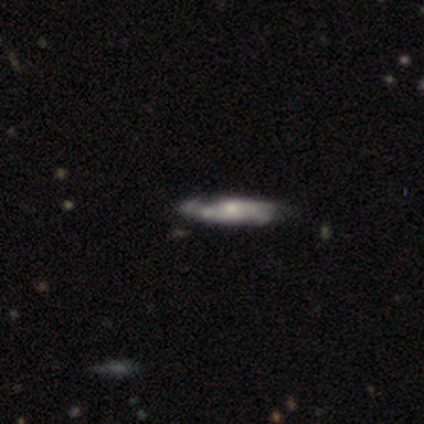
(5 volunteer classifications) This is clearly a featured or disk galaxy (100%). It is clearly not viewed edge-on (80%). Bar: possibly weak (50%, tied with no). Spiral arm pattern: likely no (75%). Central bulge: marginally large (25%, tied with moderate, small and none). Merging: likely none (60%).